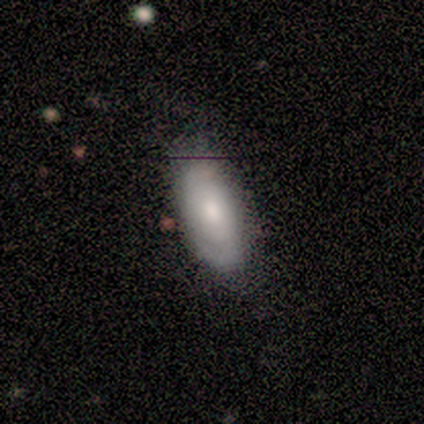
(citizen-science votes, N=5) Q: Smooth or featured?
A: smooth (80%); runner-up: featured or disk (20%)
Q: How rounded?
A: in between (100%)
Q: Merging?
A: none (60%); runner-up: minor disturbance (20%)